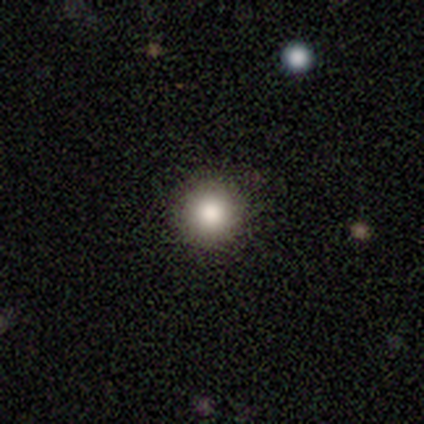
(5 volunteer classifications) Smooth or featured? smooth (100%)
How rounded? round (100%)
Merging? none (100%)